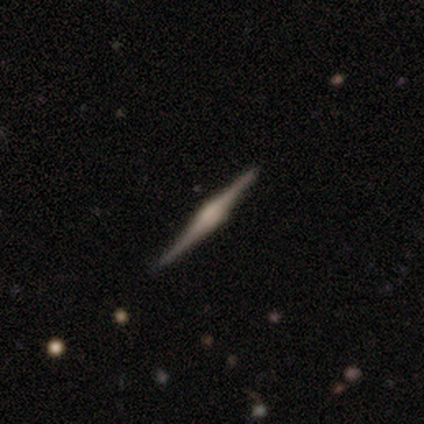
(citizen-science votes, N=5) Smooth or featured? smooth (40%, tied with featured or disk)
How rounded? cigar-shaped (100%)
Merging? none (100%)